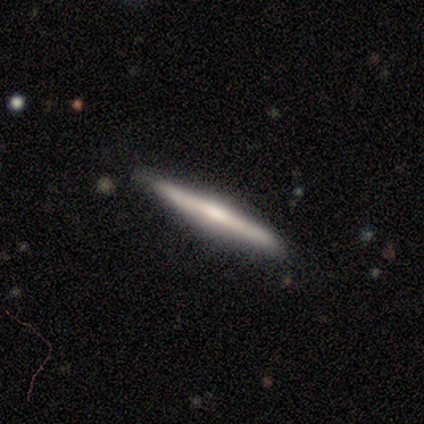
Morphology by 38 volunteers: Smooth or featured? featured or disk (55%)
Edge-on disk? yes (100%)
Edge-on bulge? rounded (57%)
Merging? none (86%)